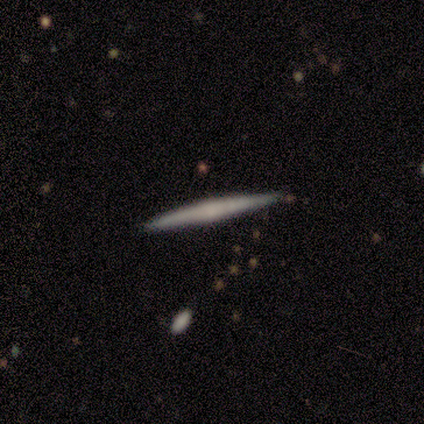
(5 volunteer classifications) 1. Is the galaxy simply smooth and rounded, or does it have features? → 100% featured or disk, 0% smooth, 0% star or artifact.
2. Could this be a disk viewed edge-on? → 100% yes, 0% no.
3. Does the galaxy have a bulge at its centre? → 80% none, 20% boxy, 0% rounded.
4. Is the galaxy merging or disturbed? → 100% none, 0% minor disturbance, 0% major disturbance, 0% merger.